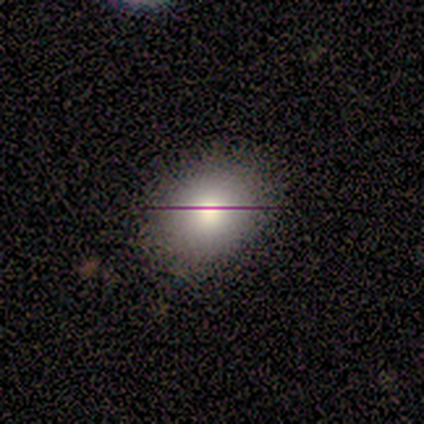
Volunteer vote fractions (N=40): A smooth galaxy with no disk features (50%) that is round (50%, tied with in between). Merging: none (77%).